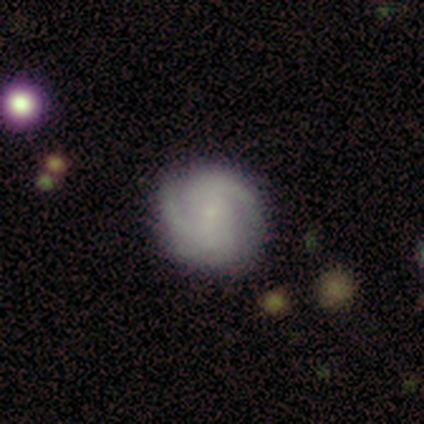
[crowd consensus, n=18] Overall: featured or disk (83%). Edge-on disk: no (100%). Bar: no (60%; weak 40%). Spiral arms: yes (100%). Spiral arm count: can't tell (33%; 2 27%). Spiral winding: tight (53%; medium 47%). Bulge size: small (73%). Merging: none (88%).